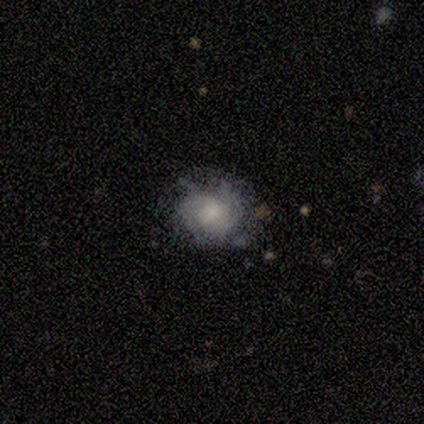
Smooth or featured? featured or disk (68%)
Edge-on disk? no (97%)
Bar? no (74%)
Spiral arms? yes (77%)
Spiral winding? tight (52%)
Spiral arm count? can't tell (52%)
Bulge size? small (60%)
Merging? none (52%)